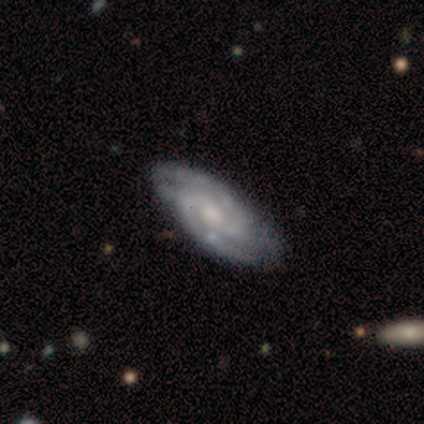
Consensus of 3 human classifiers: Q: Smooth or featured?
A: featured or disk (100%)
Q: Edge-on disk?
A: no (100%)
Q: Bar?
A: no (100%)
Q: Spiral arms?
A: yes (100%)
Q: Spiral winding?
A: tight (100%)
Q: Spiral arm count?
A: 3 (67%); runner-up: can't tell (33%)
Q: Bulge size?
A: moderate (33%); tied with: small (33%); none (33%)
Q: Merging?
A: none (100%)